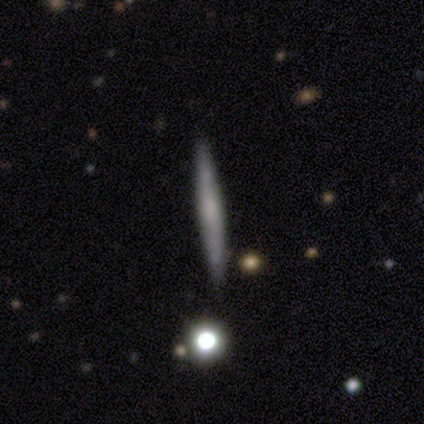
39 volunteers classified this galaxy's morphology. A featured or disk galaxy (62%) viewed edge-on (100%) with no central bulge (75%).

Vote fractions:
- Smooth or featured? featured or disk: 62% / smooth: 36% / star or artifact: 3%
- Edge-on disk? yes: 100% / no: 0%
- Edge-on bulge? none: 75% / rounded: 25% / boxy: 0%
- Merging? none: 92% / minor disturbance: 8% / major disturbance: 0% / merger: 0%